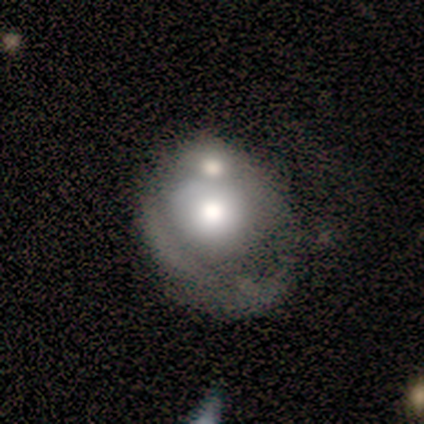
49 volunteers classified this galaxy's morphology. smooth-or-featured: featured or disk: 53% | smooth: 45% | star or artifact: 2%
  disk-edge-on: no: 100% | yes: 0%
    bar: no: 92% | weak: 8% | strong: 0%
    has-spiral-arms: no: 58% | yes: 42%
    bulge-size: large: 69% | moderate: 27% | small: 4% | dominant: 0% | none: 0%
  merging: merger: 58% | major disturbance: 19% | none: 15% | minor disturbance: 8%